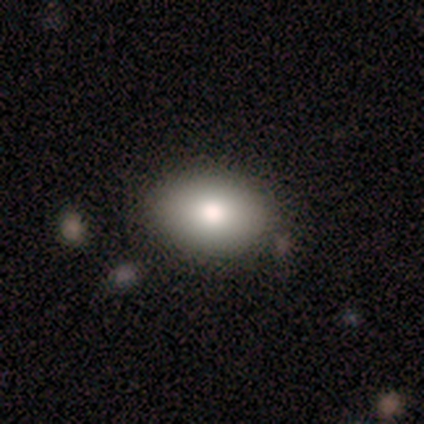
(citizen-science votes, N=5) smooth_or_featured: smooth (p=0.60) [alt: featured or disk p=0.40]
how_rounded: in between (p=0.67) [alt: round p=0.33]
merging: none (p=1.00)